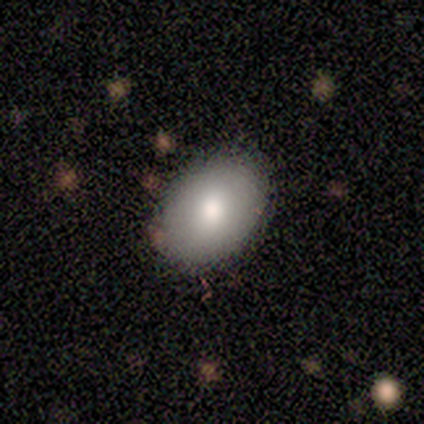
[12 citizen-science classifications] This is clearly a smooth galaxy (92%). How rounded: clearly in between (91%). Merging: likely none (75%).